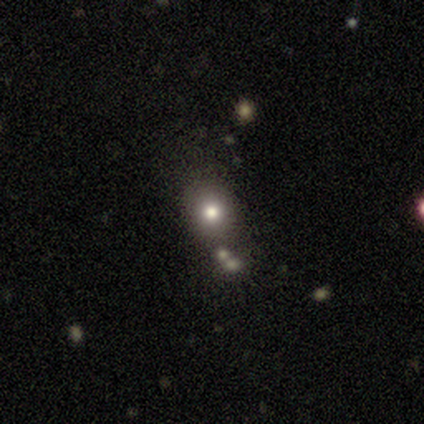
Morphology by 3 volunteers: Smooth or featured: smooth — 100%
How rounded: round — 67% (in between — 33%)
Merging: none — 33% (tied with minor disturbance — 33%; merger — 33%)